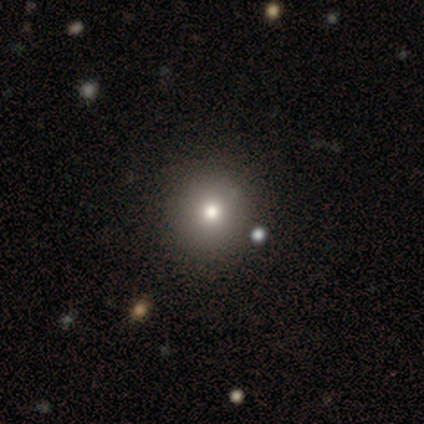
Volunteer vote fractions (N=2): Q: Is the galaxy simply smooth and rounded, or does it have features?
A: smooth — 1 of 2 (50%, tied with featured or disk).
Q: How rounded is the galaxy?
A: round — 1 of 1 (100%).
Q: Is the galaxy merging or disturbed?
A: none — 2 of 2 (100%).